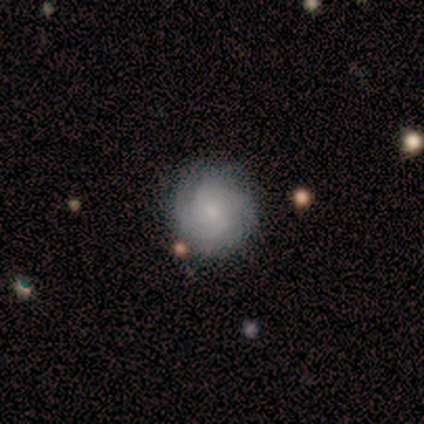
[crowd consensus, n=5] featured or disk 60%, smooth 40%, star or artifact 0%. Down the decision tree: edge-on disk — no (100%); bar — no (67%); spiral arms — yes (100%); spiral arm count — can't tell (67%); spiral winding — medium (67%); bulge size — small (67%); merging — none (100%).